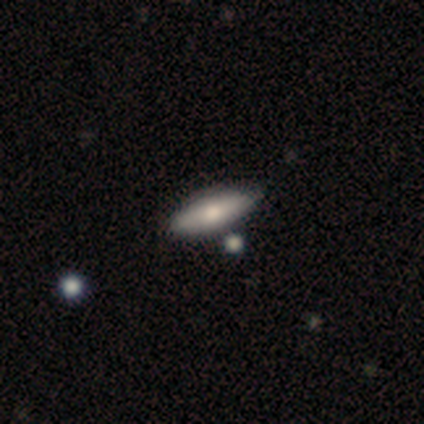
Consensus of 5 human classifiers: A smooth galaxy with no disk features (80%) that is in between round and cigar-shaped (100%). Merging: none (80%).